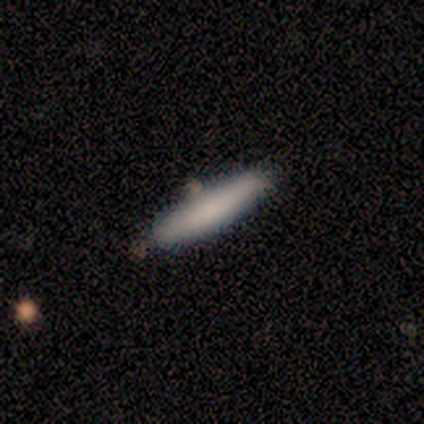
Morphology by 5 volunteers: Volunteers were most divided on "smooth or featured": smooth: 60%, featured or disk: 40%, star or artifact: 0%. More confident: how rounded — cigar-shaped (100%); merging — none (60%).